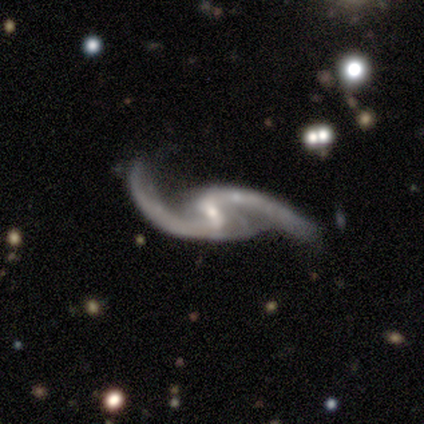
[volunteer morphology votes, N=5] Smooth or featured? 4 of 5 (80%) said featured or disk. Edge-on disk? 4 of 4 (100%) said no. Bar? 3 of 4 (75%) said weak. Spiral arms? 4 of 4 (100%) said yes. Spiral winding? 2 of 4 (50%) said loose. Spiral arm count? 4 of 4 (100%) said 2. Bulge size? 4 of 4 (100%) said small. Merging? 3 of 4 (75%) said none.